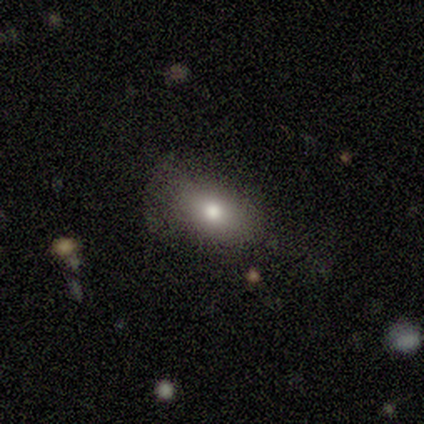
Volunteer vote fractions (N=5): Q: Smooth or featured?
A: smooth (80%); runner-up: star or artifact (20%)
Q: How rounded?
A: in between (100%)
Q: Merging?
A: none (75%); runner-up: minor disturbance (25%)